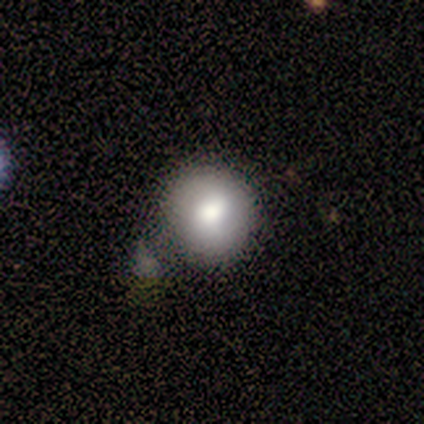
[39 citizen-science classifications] Smooth or featured?
  - smooth: 64% *
  - featured or disk: 21%
  - star or artifact: 15%
How rounded?
  - round: 92% *
  - in between: 8%
  - cigar-shaped: 0%
Merging?
  - none: 42% * (tied)
  - minor disturbance: 42% * (tied)
  - major disturbance: 9%
  - merger: 6%